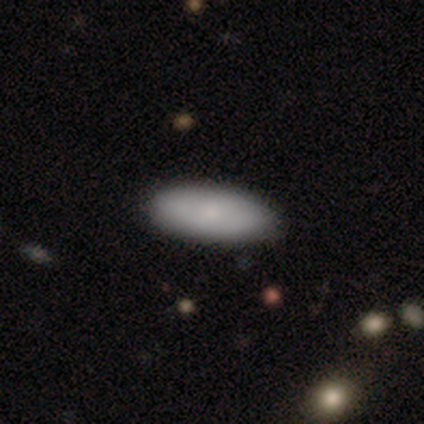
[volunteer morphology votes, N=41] A smooth galaxy with no disk features (76%) that is in between round and cigar-shaped (97%). Merging: none (67%).